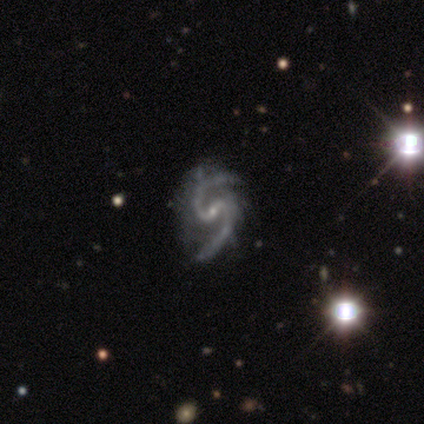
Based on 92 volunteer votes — Overall: featured or disk (89%). Edge-on disk: no (96%). Bar: weak (53%; no 28%). Spiral arms: yes (94%). Spiral arm count: 2 (97%). Spiral winding: medium (65%; loose 31%). Bulge size: small (86%). Merging: none (62%; minor disturbance 34%).